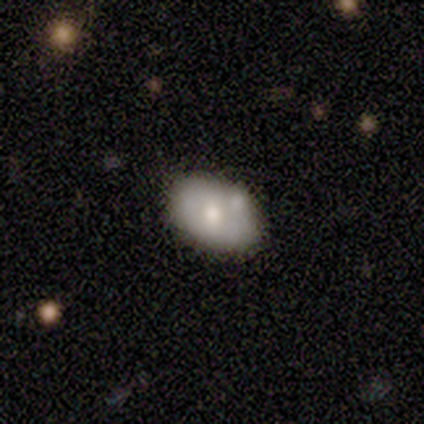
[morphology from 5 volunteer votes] smooth-or-featured: smooth: 80% | featured or disk: 20% | star or artifact: 0%
  how-rounded: in between: 100% | round: 0% | cigar-shaped: 0%
  merging: none: 60% | minor disturbance: 40% | major disturbance: 0% | merger: 0%